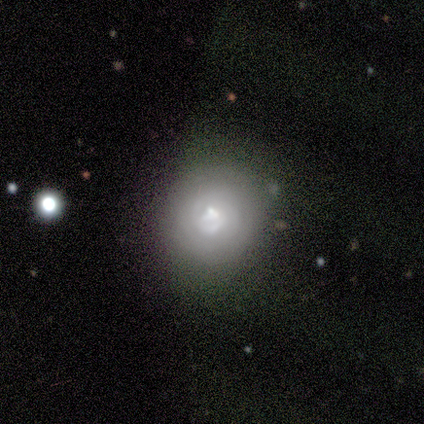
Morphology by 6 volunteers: smooth-or-featured: smooth: 33% (tied) | featured or disk: 33% (tied) | star or artifact: 33% (tied)
  how-rounded: round: 50% (tied) | cigar-shaped: 50% (tied) | in between: 0%
  merging: none: 50% (tied) | minor disturbance: 50% (tied) | major disturbance: 0% | merger: 0%